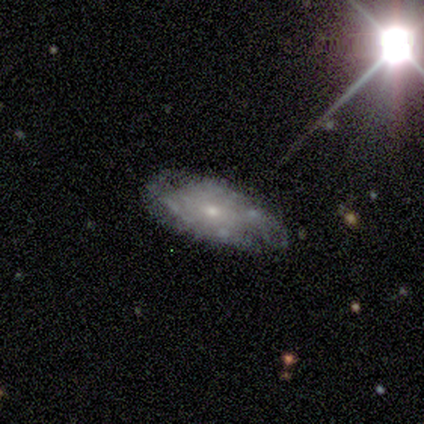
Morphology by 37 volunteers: Q: Smooth or featured?
A: featured or disk (78%); runner-up: smooth (19%)
Q: Edge-on disk?
A: no (86%); runner-up: yes (14%)
Q: Bar?
A: no (88%); runner-up: weak (8%)
Q: Spiral arms?
A: no (60%); runner-up: yes (40%)
Q: Bulge size?
A: small (76%); runner-up: moderate (20%)
Q: Merging?
A: none (50%); runner-up: minor disturbance (33%)